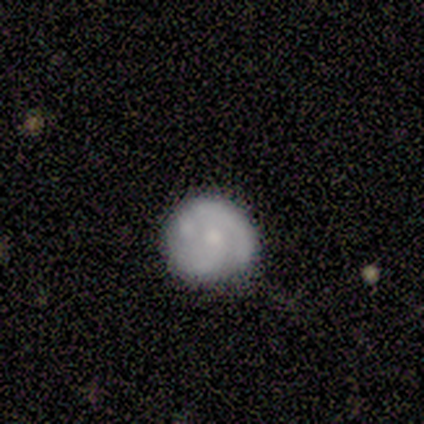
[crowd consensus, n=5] Volunteers were most divided on "spiral arms" (2-way tie): yes: 50%, no: 50%; "spiral winding" (2-way tie): tight: 50%, medium: 50%, loose: 0%; "spiral arm count" (2-way tie): 1: 50%, 2: 50%, 3: 0%, 4: 0%, more than 4: 0%, can't tell: 0%. More confident: edge-on disk — no (100%); bar — no (100%); smooth or featured — featured or disk (80%); bulge size — small (75%); merging — major disturbance (50%).